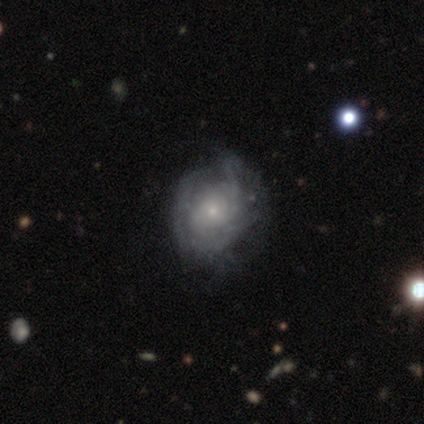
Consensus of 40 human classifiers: Q: Smooth or featured?
A: featured or disk (80%); runner-up: smooth (18%)
Q: Edge-on disk?
A: no (100%)
Q: Bar?
A: no (78%); runner-up: weak (19%)
Q: Spiral arms?
A: yes (75%); runner-up: no (25%)
Q: Spiral winding?
A: tight (62%); runner-up: medium (21%)
Q: Spiral arm count?
A: can't tell (79%); runner-up: 2 (12%)
Q: Bulge size?
A: small (78%); runner-up: moderate (16%)
Q: Merging?
A: none (31%); runner-up: minor disturbance (21%)